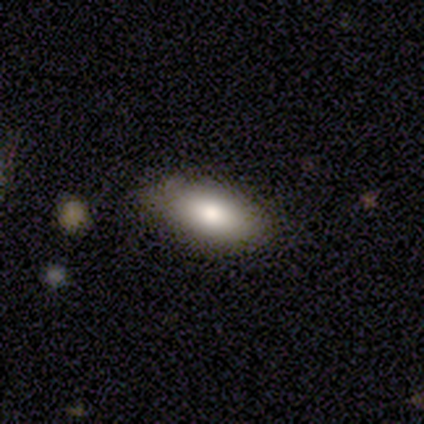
A smooth galaxy with no disk features (80%) that is in between round and cigar-shaped (75%).

Vote fractions:
- Smooth or featured? smooth: 80% / featured or disk: 20% / star or artifact: 0%
- How rounded? in between: 75% / cigar-shaped: 25% / round: 0%
- Merging? none: 100% / minor disturbance: 0% / major disturbance: 0% / merger: 0%